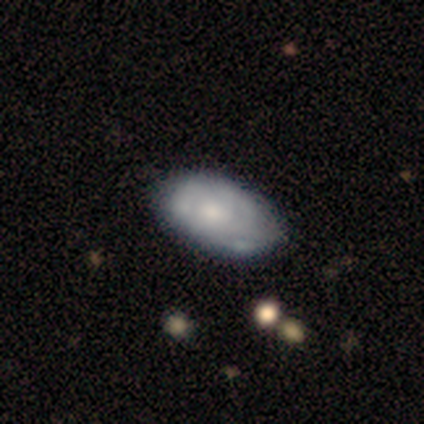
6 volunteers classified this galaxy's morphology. Volunteers were most divided on "merging" (2-way tie): none: 50%, minor disturbance: 50%, major disturbance: 0%, merger: 0%. More confident: how rounded — in between (100%); smooth or featured — smooth (67%).